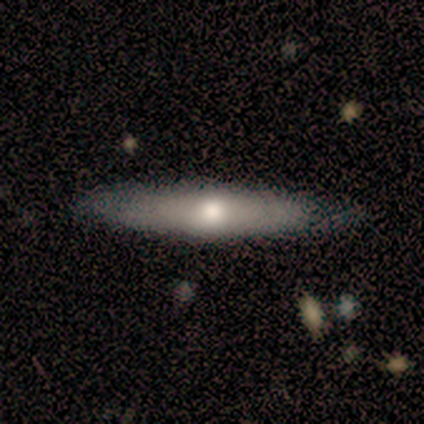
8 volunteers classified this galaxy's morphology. Smooth or featured?
  - featured or disk: 75% *
  - smooth: 12%
  - star or artifact: 12%
Edge-on disk?
  - yes: 100% *
  - no: 0%
Edge-on bulge?
  - rounded: 83% *
  - none: 17%
  - boxy: 0%
Merging?
  - none: 86% *
  - minor disturbance: 14%
  - major disturbance: 0%
  - merger: 0%